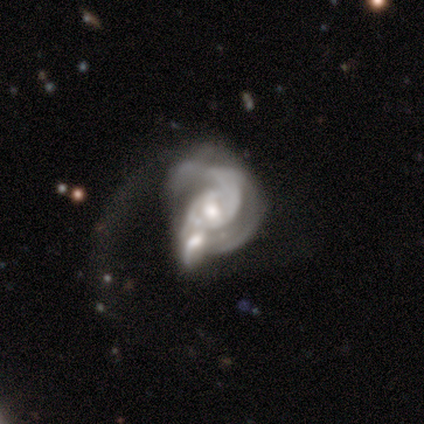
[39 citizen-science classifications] smooth-or-featured: featured or disk: 87% | star or artifact: 8% | smooth: 5%
  disk-edge-on: no: 100% | yes: 0%
    bar: no: 44% | weak: 38% | strong: 18%
    has-spiral-arms: yes: 85% | no: 15%
      spiral-winding: medium: 45% | tight: 34% | loose: 21%
      spiral-arm-count: 2: 59% | can't tell: 31% | 1: 3% | 3: 3% | 4: 3% | more than 4: 0%
    bulge-size: moderate: 68% | small: 24% | large: 9% | dominant: 0% | none: 0%
  merging: merger: 44% | major disturbance: 31% | none: 19% | minor disturbance: 6%